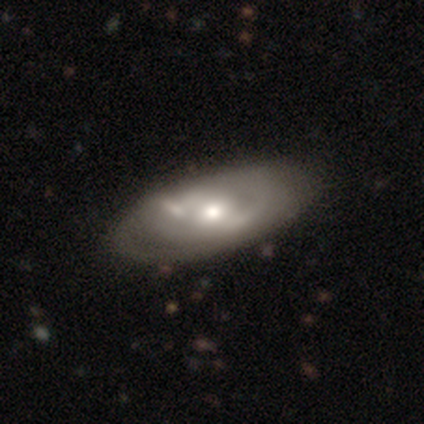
A featured or disk galaxy (100%) with a weak bar (40%, tied with no), 2 (67%) tight (100%) spiral arms (60%) and a moderate central bulge (80%).

Vote fractions:
- Smooth or featured? featured or disk: 100% / smooth: 0% / star or artifact: 0%
- Edge-on disk? no: 100% / yes: 0%
- Bar? weak: 40% (tied) / no: 40% (tied) / strong: 20%
- Spiral arms? yes: 60% / no: 40%
- Spiral winding? tight: 100% / medium: 0% / loose: 0%
- Spiral arm count? 2: 67% / can't tell: 33% / 1: 0% / 3: 0% / 4: 0% / more than 4: 0%
- Bulge size? moderate: 80% / large: 20% / dominant: 0% / small: 0% / none: 0%
- Merging? none: 40% (tied) / minor disturbance: 40% (tied) / merger: 20% / major disturbance: 0%